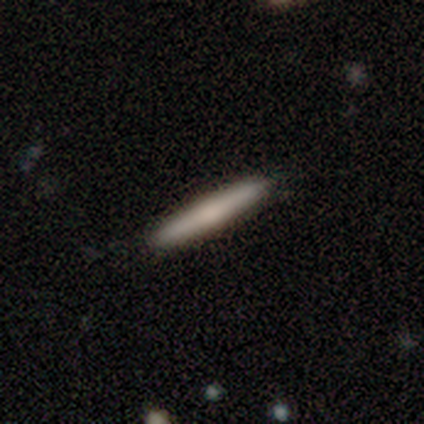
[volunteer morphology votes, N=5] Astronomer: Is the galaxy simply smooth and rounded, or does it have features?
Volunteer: featured or disk — 60% (runner-up: smooth, 40%).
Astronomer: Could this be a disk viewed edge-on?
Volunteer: yes — 100%.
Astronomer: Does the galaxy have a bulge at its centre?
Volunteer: none — 67%.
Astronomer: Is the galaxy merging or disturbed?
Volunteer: none — 100%.